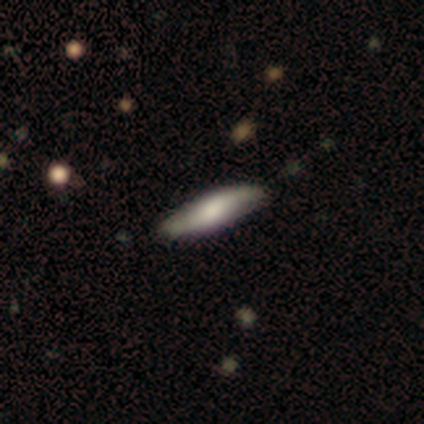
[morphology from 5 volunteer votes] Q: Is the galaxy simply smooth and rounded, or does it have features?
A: smooth — 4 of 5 (80%).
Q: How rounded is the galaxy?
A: cigar-shaped — 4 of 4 (100%).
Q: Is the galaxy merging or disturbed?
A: none — 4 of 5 (80%).